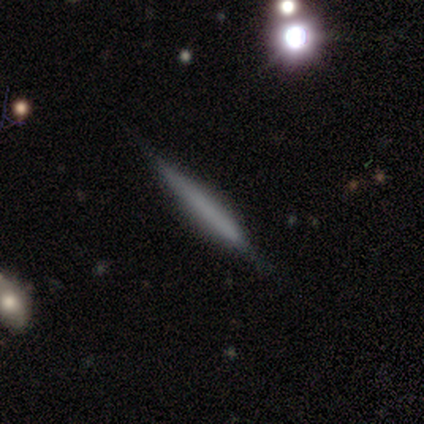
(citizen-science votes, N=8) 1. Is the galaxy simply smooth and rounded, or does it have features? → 62% featured or disk, 38% smooth, 0% star or artifact.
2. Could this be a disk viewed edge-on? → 100% yes, 0% no.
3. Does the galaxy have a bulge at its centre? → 60% none, 40% boxy, 0% rounded.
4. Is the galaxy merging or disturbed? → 88% none, 12% minor disturbance, 0% major disturbance, 0% merger.